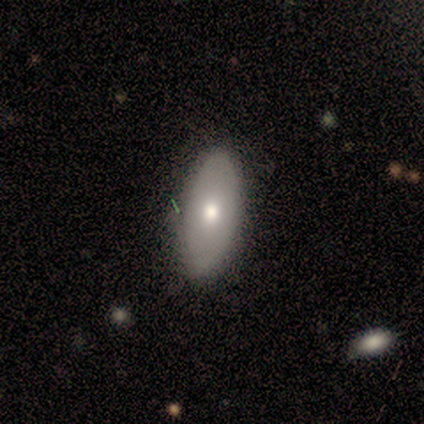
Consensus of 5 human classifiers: A smooth galaxy with no disk features (60%) that is in between round and cigar-shaped (67%). Merging: none (80%).